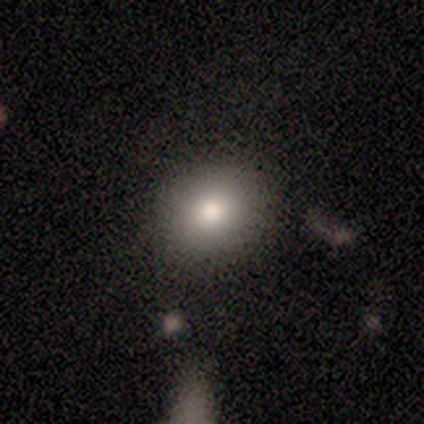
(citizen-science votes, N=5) smooth 100%, featured or disk 0%, star or artifact 0%. Down the decision tree: how rounded — round (80%); merging — none (80%).